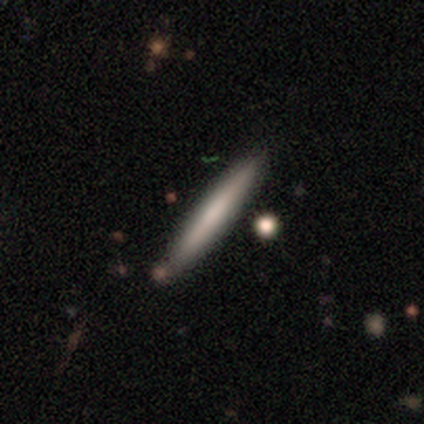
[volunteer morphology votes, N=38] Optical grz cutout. It shows a smooth galaxy with no disk features (58%) that is cigar-shaped (95%). Merging: none (78%).